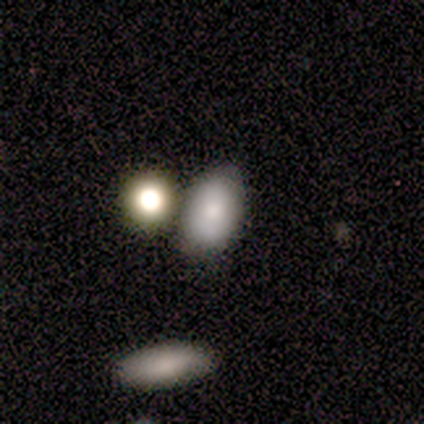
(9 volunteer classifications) Smooth or featured? 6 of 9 (67%) said smooth. How rounded? 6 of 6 (100%) said in between. Merging? 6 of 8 (75%) said none.